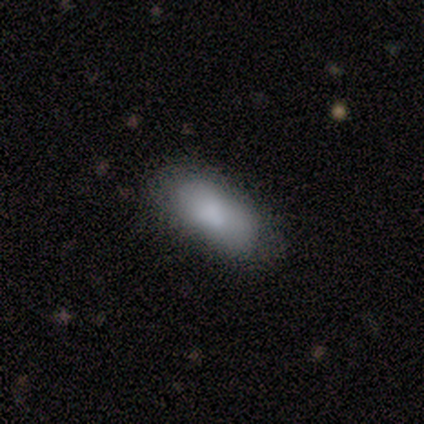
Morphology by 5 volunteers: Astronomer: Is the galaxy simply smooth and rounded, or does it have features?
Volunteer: smooth — 100%.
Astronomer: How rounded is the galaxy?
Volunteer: in between — 80%.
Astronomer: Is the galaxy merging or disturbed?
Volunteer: none — 100%.